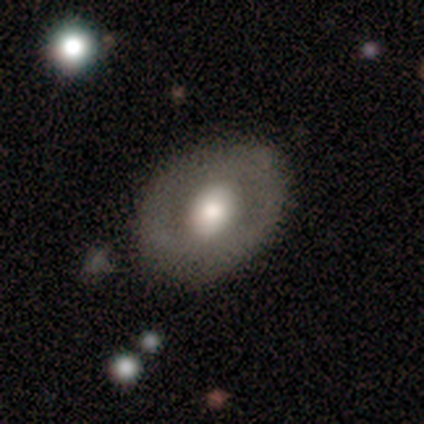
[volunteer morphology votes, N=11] Smooth or featured? smooth (64%)
How rounded? in between (86%)
Merging? none (64%)